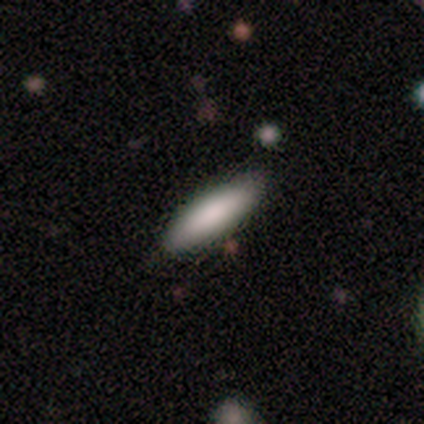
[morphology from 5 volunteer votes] A smooth galaxy with no disk features (100%) that is cigar-shaped (60%).

Vote fractions:
- Smooth or featured? smooth: 100% / featured or disk: 0% / star or artifact: 0%
- How rounded? cigar-shaped: 60% / in between: 40% / round: 0%
- Merging? none: 100% / minor disturbance: 0% / major disturbance: 0% / merger: 0%